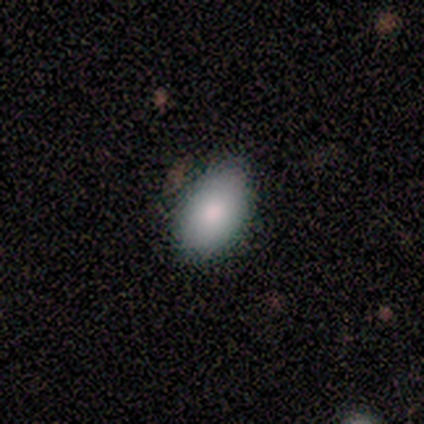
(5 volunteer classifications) smooth 60%, featured or disk 20%, star or artifact 20%. Down the decision tree: how rounded — in between (100%); merging — none (100%).